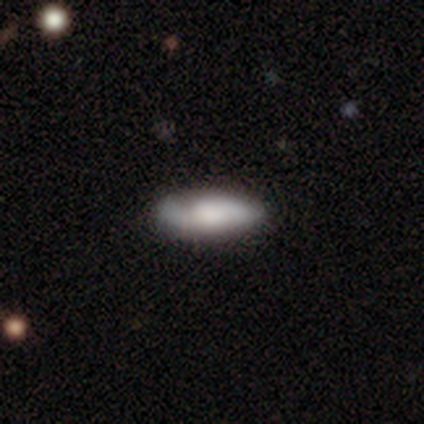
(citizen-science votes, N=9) Q: Smooth or featured?
A: smooth (100%)
Q: How rounded?
A: in between (78%); runner-up: cigar-shaped (22%)
Q: Merging?
A: none (89%); runner-up: minor disturbance (11%)